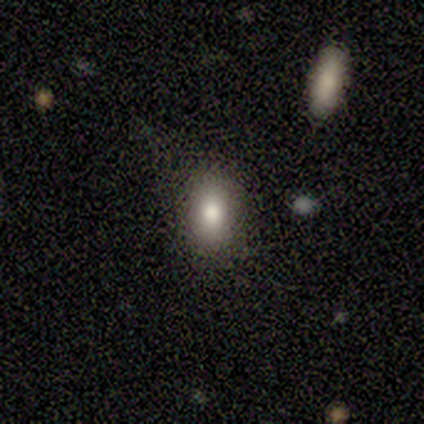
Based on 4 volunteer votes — Smooth or featured? smooth (75%)
How rounded? in between (67%)
Merging? none (100%)